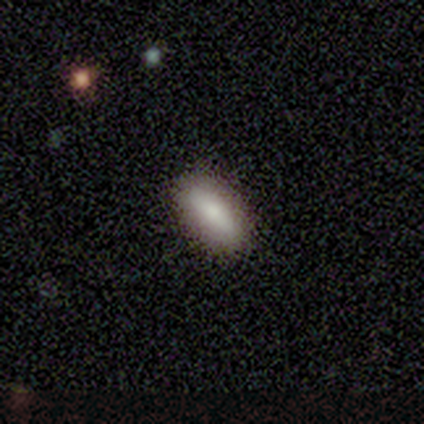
Smooth or featured? 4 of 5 (80%) said smooth. How rounded? 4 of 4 (100%) said in between. Merging? 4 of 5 (80%) said none.